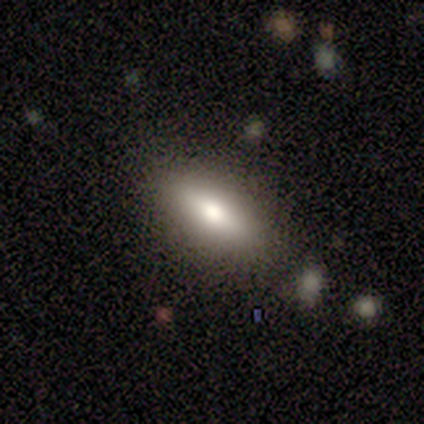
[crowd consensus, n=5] This is clearly a smooth galaxy (80%). How rounded: possibly in between (50%, tied with cigar-shaped). Merging: clearly none (80%).